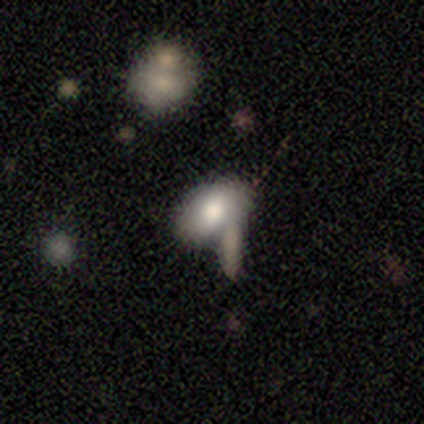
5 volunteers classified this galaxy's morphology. smooth 80%, featured or disk 20%, star or artifact 0%. Down the decision tree: how rounded — in between (100%); merging — none (40%, tied with merger).